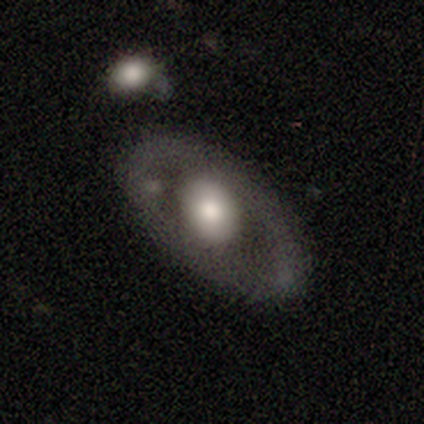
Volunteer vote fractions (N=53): Smooth or featured: featured or disk — 49% (smooth — 42%)
Edge-on disk: no — 92% (yes — 8%)
Bar: no — 92% (strong — 4%)
Spiral arms: no — 83% (yes — 17%)
Bulge size: large — 42% (tied with moderate — 42%)
Merging: none — 71% (minor disturbance — 19%)